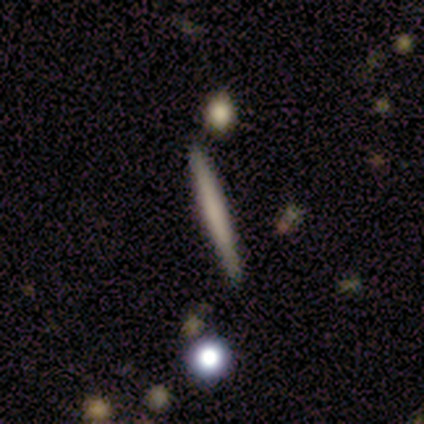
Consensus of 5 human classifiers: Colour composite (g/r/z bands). It shows a smooth galaxy with no disk features (80%) that is cigar-shaped (100%). Merging: none (100%).